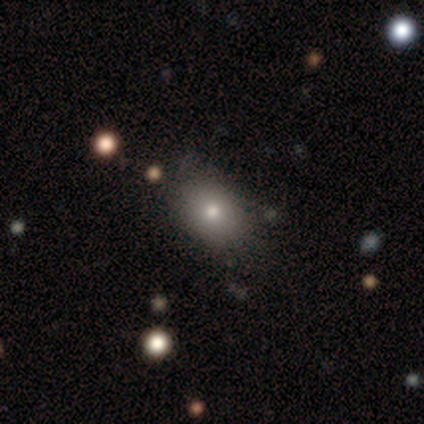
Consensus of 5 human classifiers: smooth 60%, featured or disk 20%, star or artifact 20%. Down the decision tree: how rounded — in between (67%); merging — none (50%, tied with minor disturbance).